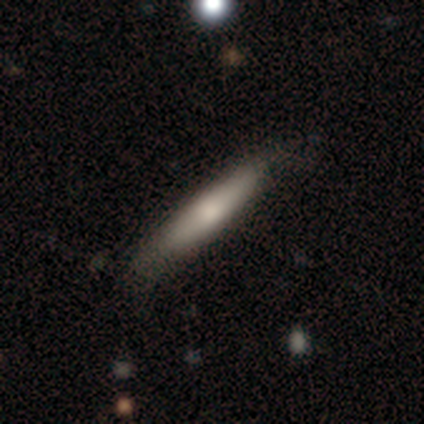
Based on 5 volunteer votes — Morphology: type=featured or disk (60%); edge-on=yes (67%); edge-on bulge=rounded (100%); merging=none (60%).